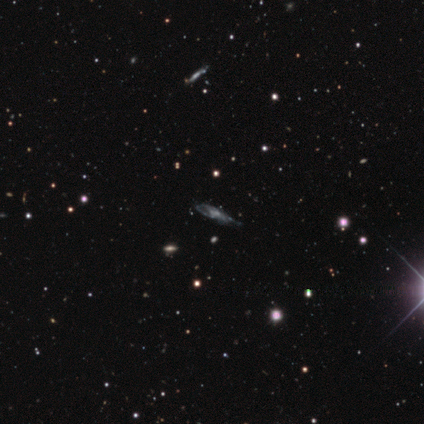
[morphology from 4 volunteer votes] Q: Smooth or featured?
A: featured or disk (100%)
Q: Edge-on disk?
A: yes (50%); tied with: no (50%)
Q: Edge-on bulge?
A: rounded (100%)
Q: Merging?
A: minor disturbance (50%); tied with: major disturbance (50%)